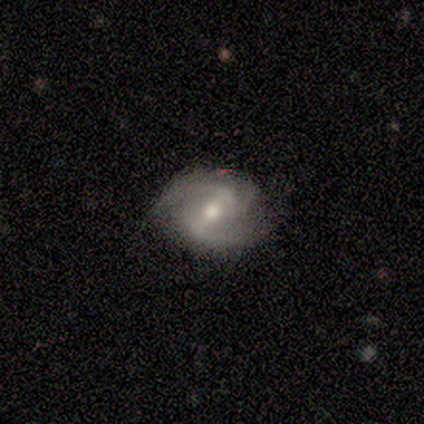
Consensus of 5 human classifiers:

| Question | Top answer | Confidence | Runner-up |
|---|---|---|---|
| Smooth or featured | featured or disk | 60% | smooth (20%) |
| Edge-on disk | no | 100% | — |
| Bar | weak | 67% | strong (33%) |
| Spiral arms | yes | 100% | — |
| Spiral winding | loose | 67% | medium (33%) |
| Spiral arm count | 3 | 67% | 2 (33%) |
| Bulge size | moderate | 67% | small (33%) |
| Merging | none | 50% | minor disturbance (25%) |